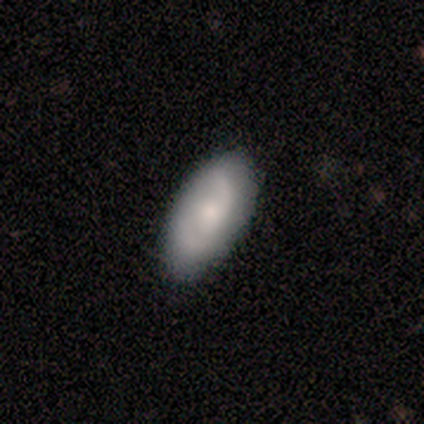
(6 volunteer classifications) Smooth or featured: featured or disk — 67% (smooth — 33%)
Edge-on disk: no — 100%
Bar: weak — 50% (tied with no — 50%)
Spiral arms: yes — 100%
Spiral winding: medium — 75% (tight — 25%)
Spiral arm count: 2 — 50% (1 — 25%)
Bulge size: small — 100%
Merging: none — 83% (minor disturbance — 17%)